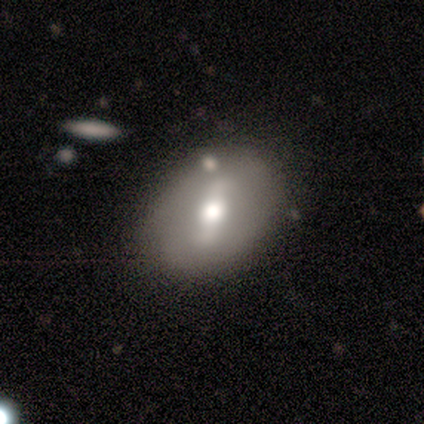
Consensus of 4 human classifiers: A smooth galaxy with no disk features (50%, tied with featured or disk) that is round (50%, tied with in between).

Vote fractions:
- Smooth or featured? smooth: 50% (tied) / featured or disk: 50% (tied) / star or artifact: 0%
- How rounded? round: 50% (tied) / in between: 50% (tied) / cigar-shaped: 0%
- Merging? none: 100% / minor disturbance: 0% / major disturbance: 0% / merger: 0%